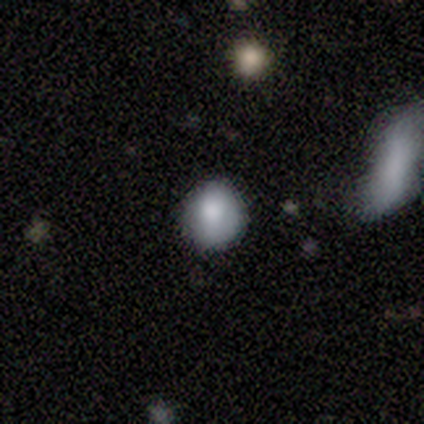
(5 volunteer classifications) Smooth or featured?
  - smooth: 80% *
  - star or artifact: 20%
  - featured or disk: 0%
How rounded?
  - round: 75% *
  - in between: 25%
  - cigar-shaped: 0%
Merging?
  - none: 50% * (tied)
  - minor disturbance: 50% * (tied)
  - major disturbance: 0%
  - merger: 0%